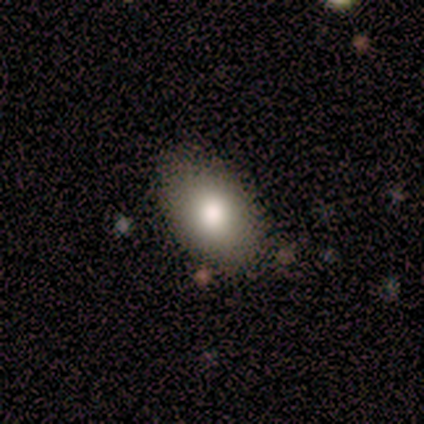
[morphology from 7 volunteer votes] A smooth galaxy with no disk features (43%, tied with featured or disk) that is in between round and cigar-shaped (67%).

Vote fractions:
- Smooth or featured? smooth: 43% (tied) / featured or disk: 43% (tied) / star or artifact: 14%
- How rounded? in between: 67% / round: 33% / cigar-shaped: 0%
- Merging? none: 83% / minor disturbance: 17% / major disturbance: 0% / merger: 0%